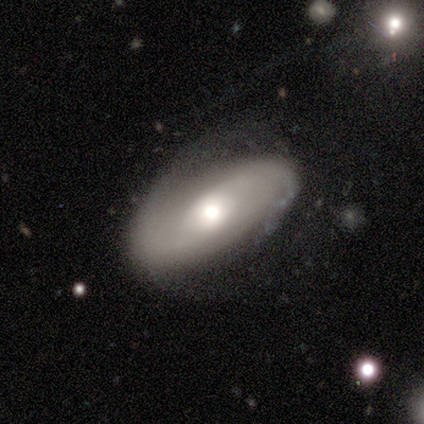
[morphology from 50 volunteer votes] Overall: featured or disk (88%). Edge-on disk: no (98%). Bar: no (81%). Spiral arms: yes (77%). Spiral arm count: 2 (55%; can't tell 39%). Spiral winding: tight (39%; loose 33%). Bulge size: moderate (63%). Merging: minor disturbance (45%; none 43%).